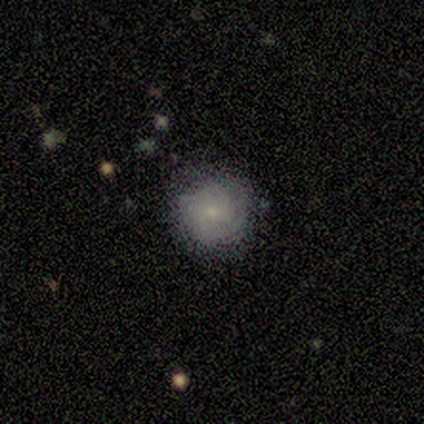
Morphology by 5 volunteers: smooth 80%, star or artifact 20%, featured or disk 0%. Down the decision tree: how rounded — round (100%); merging — none (100%).